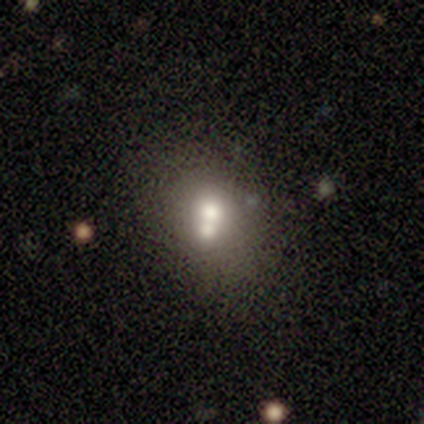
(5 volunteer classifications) Overall: smooth (60%; featured or disk 40%). How rounded: round (67%; in between 33%). Merging: merger (100%).